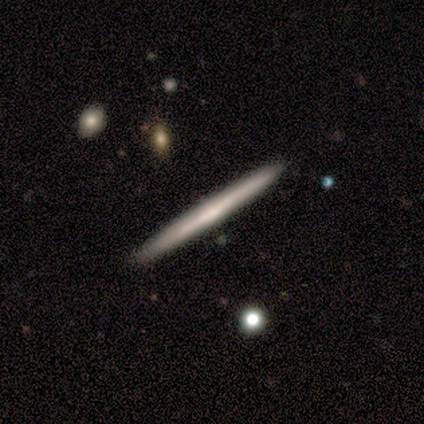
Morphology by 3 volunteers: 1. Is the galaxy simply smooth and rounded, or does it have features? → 67% smooth, 33% featured or disk, 0% star or artifact.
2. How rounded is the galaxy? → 100% cigar-shaped, 0% round, 0% in between.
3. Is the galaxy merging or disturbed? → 100% none, 0% minor disturbance, 0% major disturbance, 0% merger.